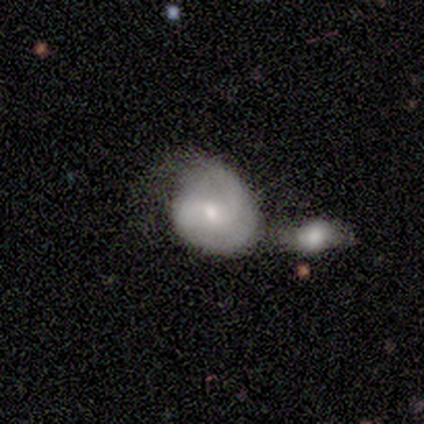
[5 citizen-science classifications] This is likely a featured or disk galaxy (60%). It is clearly not viewed edge-on (100%). Bar: likely no (67%). Spiral arm pattern: likely yes (67%). Spiral arm count: possibly 2 (50%, tied with can't tell). Spiral winding: clearly medium (100%). Central bulge: likely small (67%). Merging: marginally none (40%, tied with merger).